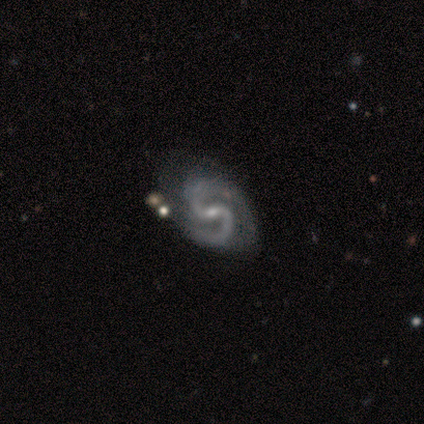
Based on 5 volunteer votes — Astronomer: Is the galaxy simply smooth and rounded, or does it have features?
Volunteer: featured or disk — 80%.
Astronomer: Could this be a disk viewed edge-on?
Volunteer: no — 100%.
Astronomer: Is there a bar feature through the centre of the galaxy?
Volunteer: weak — 75%.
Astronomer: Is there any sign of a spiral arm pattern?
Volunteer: yes — 100%.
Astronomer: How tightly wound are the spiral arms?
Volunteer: medium — 50%.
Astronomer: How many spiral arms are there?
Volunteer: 2 — 100%.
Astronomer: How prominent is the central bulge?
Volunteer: small — 100%.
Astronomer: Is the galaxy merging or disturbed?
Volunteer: none — 75%.